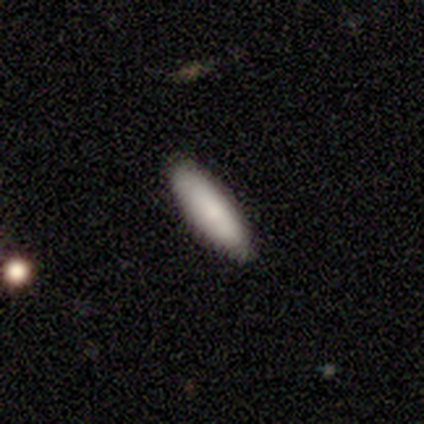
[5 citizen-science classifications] smooth 80%, featured or disk 20%, star or artifact 0%. Down the decision tree: how rounded — cigar-shaped (75%); merging — none (100%).